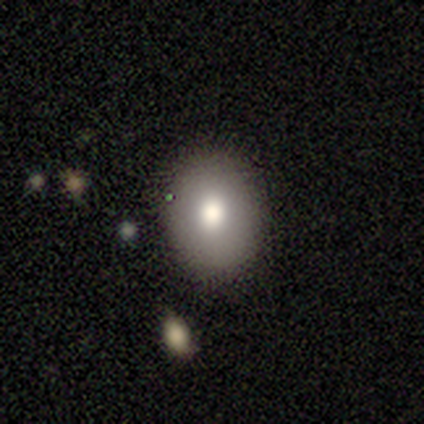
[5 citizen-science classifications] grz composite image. It shows a smooth galaxy with no disk features (100%) that is round (60%). Merging: none (80%).